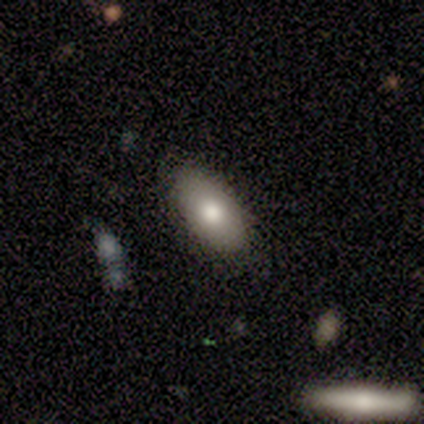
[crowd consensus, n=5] smooth-or-featured: smooth: 80% | star or artifact: 20% | featured or disk: 0%
  how-rounded: in between: 75% | cigar-shaped: 25% | round: 0%
  merging: none: 100% | minor disturbance: 0% | major disturbance: 0% | merger: 0%